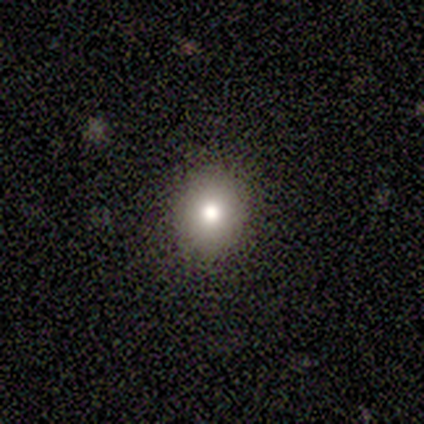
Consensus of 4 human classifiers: This appears to be a smooth galaxy with no disk features (75%) that is in between round and cigar-shaped (67%). Merging: none (67%).